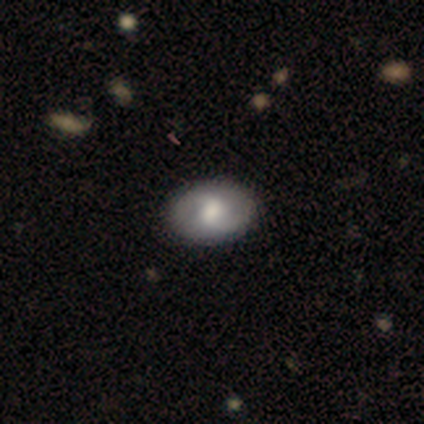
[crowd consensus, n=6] Smooth or featured: featured or disk — 83% (star or artifact — 17%)
Edge-on disk: no — 100%
Bar: weak — 60% (no — 40%)
Spiral arms: yes — 80% (no — 20%)
Spiral winding: loose — 75% (medium — 25%)
Spiral arm count: 2 — 75% (can't tell — 25%)
Bulge size: moderate — 40% (tied with small — 40%)
Merging: none — 100%